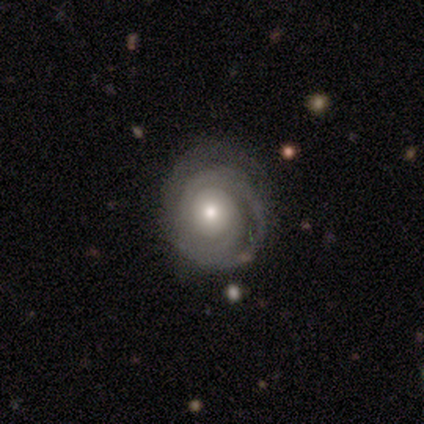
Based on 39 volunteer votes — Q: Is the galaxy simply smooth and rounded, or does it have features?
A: featured or disk — 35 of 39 (90%).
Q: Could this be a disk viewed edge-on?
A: no — 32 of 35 (91%).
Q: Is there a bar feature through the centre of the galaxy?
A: no — 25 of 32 (78%).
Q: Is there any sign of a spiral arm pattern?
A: yes — 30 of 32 (94%).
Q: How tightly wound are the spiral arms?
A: tight — 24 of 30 (80%).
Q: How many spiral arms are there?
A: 2 — 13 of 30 (43%).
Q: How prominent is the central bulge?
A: moderate — 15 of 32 (47%).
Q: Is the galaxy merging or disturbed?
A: none — 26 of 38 (68%).